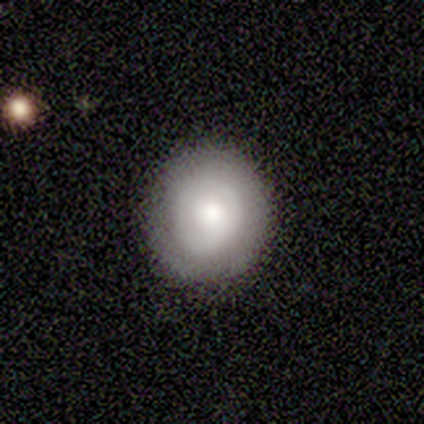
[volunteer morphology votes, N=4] A smooth galaxy with no disk features (75%) that is round (100%).

Vote fractions:
- Smooth or featured? smooth: 75% / featured or disk: 25% / star or artifact: 0%
- How rounded? round: 100% / in between: 0% / cigar-shaped: 0%
- Merging? none: 100% / minor disturbance: 0% / major disturbance: 0% / merger: 0%